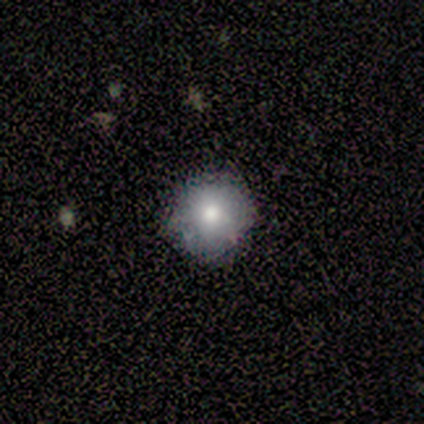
Smooth or featured? 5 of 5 (100%) said smooth. How rounded? 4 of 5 (80%) said round. Merging? 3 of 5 (60%) said minor disturbance.